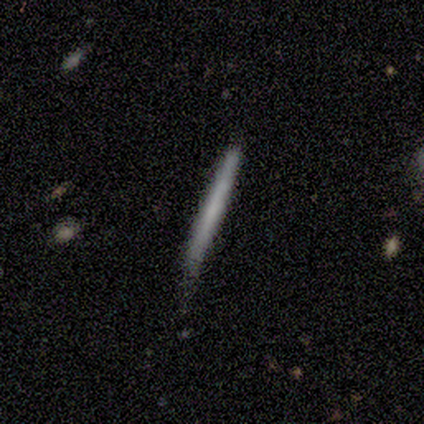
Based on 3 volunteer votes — Smooth or featured?
  - smooth: 67% *
  - featured or disk: 33%
  - star or artifact: 0%
How rounded?
  - cigar-shaped: 100% *
  - round: 0%
  - in between: 0%
Merging?
  - minor disturbance: 67% *
  - none: 33%
  - major disturbance: 0%
  - merger: 0%